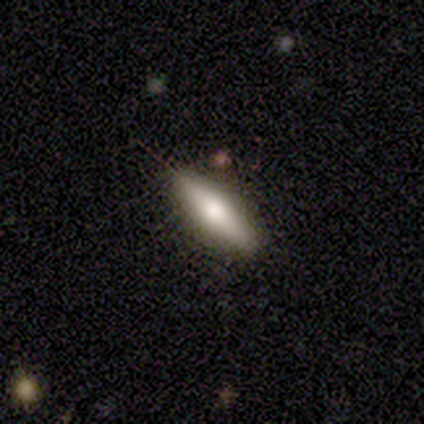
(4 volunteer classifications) Smooth or featured? 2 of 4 (50%) said smooth. How rounded? 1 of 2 (50%, tied with cigar-shaped) said in between. Merging? 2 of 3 (67%) said none.